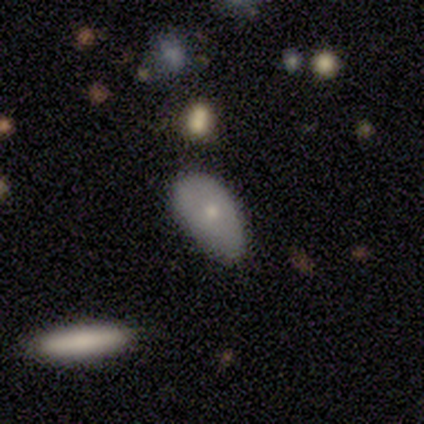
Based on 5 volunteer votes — This appears to be a smooth galaxy with no disk features (60%) that is in between round and cigar-shaped (100%). Merging: none (40%, tied with minor disturbance).